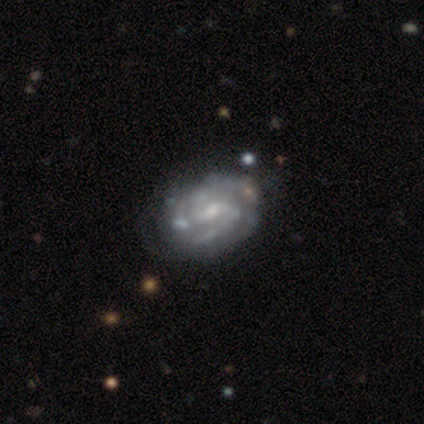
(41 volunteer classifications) Overall: featured or disk (90%). Edge-on disk: no (97%). Bar: weak (64%). Spiral arms: yes (92%). Spiral arm count: 2 (67%). Spiral winding: tight (48%; medium 42%). Bulge size: small (69%). Merging: none (68%).